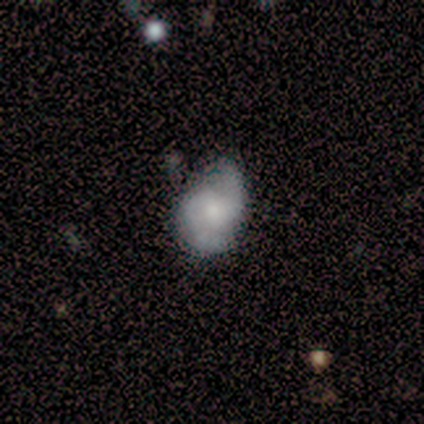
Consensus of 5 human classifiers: Volunteers were most divided on "bulge size" (2-way tie): moderate: 40%, small: 40%, none: 20%, dominant: 0%, large: 0%. More confident: smooth or featured — featured or disk (100%); edge-on disk — no (100%); spiral arm count — 2 (100%); spiral arms — yes (80%); spiral winding — loose (75%); bar — no (60%); merging — none (60%).